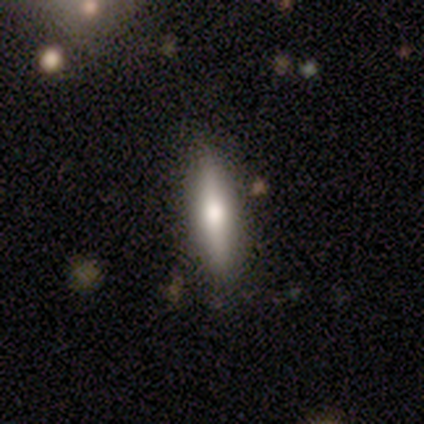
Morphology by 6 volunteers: smooth 50% (tied), featured or disk 50% (tied), star or artifact 0%. Down the decision tree: how rounded — cigar-shaped (100%); merging — none (83%).